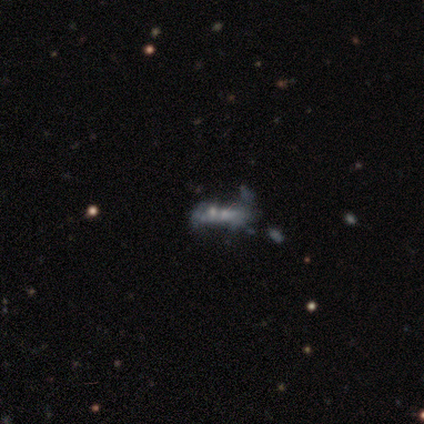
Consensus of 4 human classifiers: Smooth or featured? featured or disk (75%)
Edge-on disk? no (100%)
Bar? no (100%)
Spiral arms? no (100%)
Bulge size? moderate (33%, tied with small and none)
Merging? merger (75%)